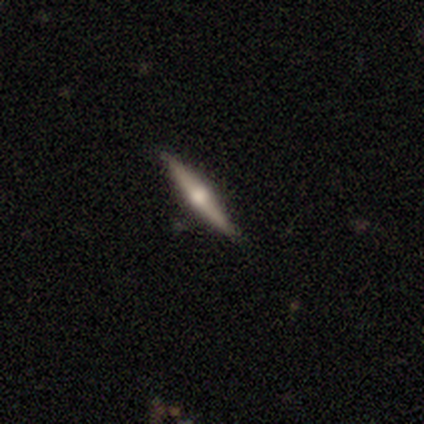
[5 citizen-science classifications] A smooth galaxy with no disk features (60%) that is cigar-shaped (67%). Merging: none (100%).